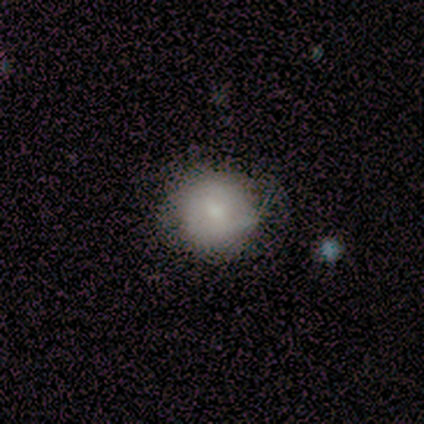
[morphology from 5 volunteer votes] Smooth or featured? 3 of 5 (60%) said smooth. How rounded? 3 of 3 (100%) said round. Merging? 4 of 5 (80%) said none.